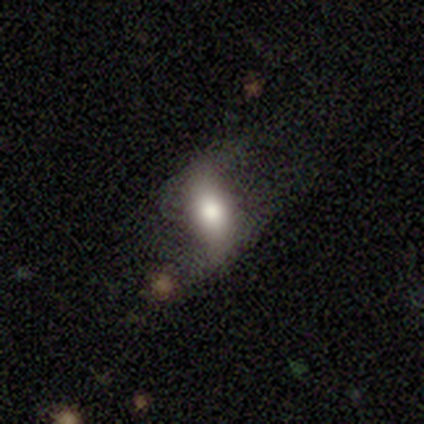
smooth-or-featured: smooth: 64% | featured or disk: 26% | star or artifact: 10%
  how-rounded: in between: 74% | cigar-shaped: 22% | round: 4%
  merging: none: 53% | major disturbance: 26% | minor disturbance: 18% | merger: 3%